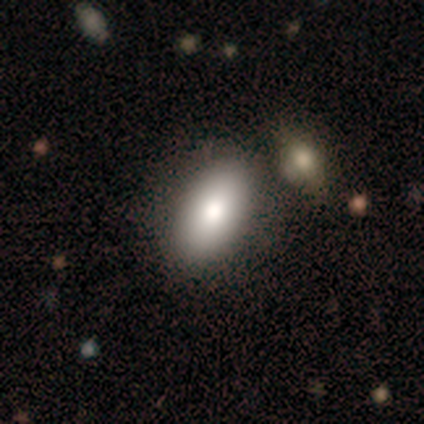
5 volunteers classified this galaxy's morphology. type=smooth (80%); roundness=in between (100%); merging=none (60%).